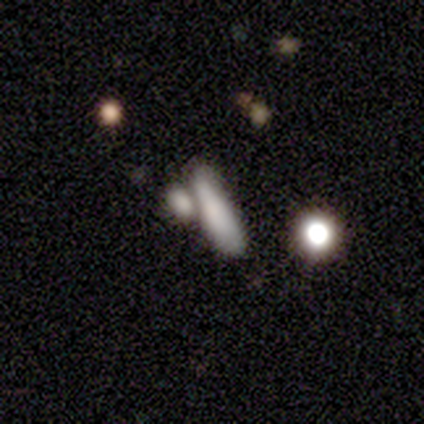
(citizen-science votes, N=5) smooth 80%, star or artifact 20%, featured or disk 0%. Down the decision tree: how rounded — cigar-shaped (75%); merging — none (50%).